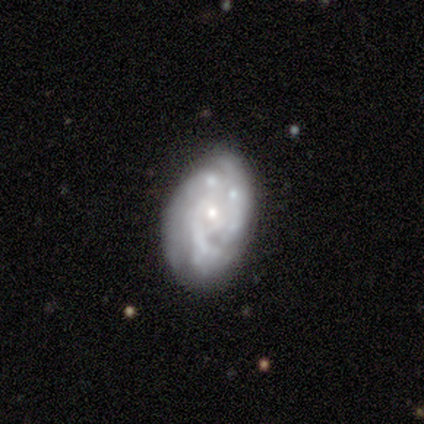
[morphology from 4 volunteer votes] smooth_or_featured: featured or disk (p=1.00)
disk_edge_on: no (p=1.00)
bar: no (p=1.00)
has_spiral_arms: yes (p=0.75) [alt: no p=0.25]
spiral_winding: tight (p=0.67) [alt: loose p=0.33]
spiral_arm_count: 2 (p=0.67) [alt: can't tell p=0.33]
bulge_size: small (p=1.00)
merging: none (p=0.50) [alt: minor disturbance p=0.25]